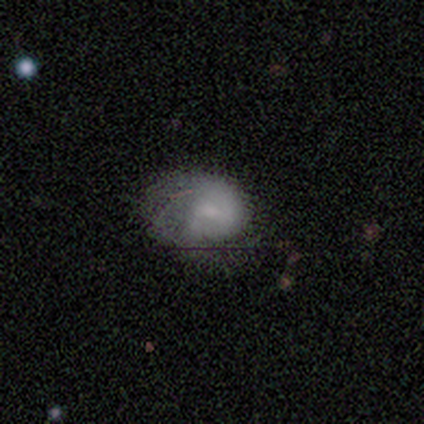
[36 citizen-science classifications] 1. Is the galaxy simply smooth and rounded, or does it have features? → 53% smooth, 39% featured or disk, 8% star or artifact.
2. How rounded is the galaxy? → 58% in between, 42% round, 0% cigar-shaped.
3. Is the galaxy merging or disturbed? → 48% none, 33% major disturbance, 15% minor disturbance, 3% merger.